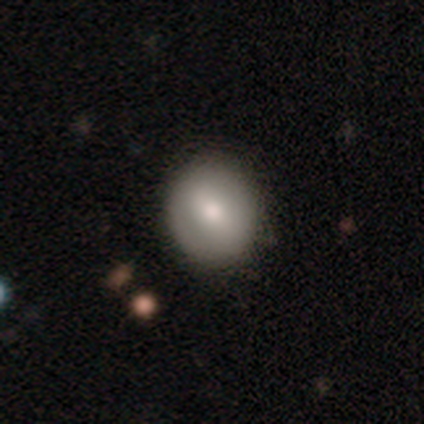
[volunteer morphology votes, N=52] This appears to be a smooth galaxy with no disk features (73%) that is round (76%). Merging: none (98%).